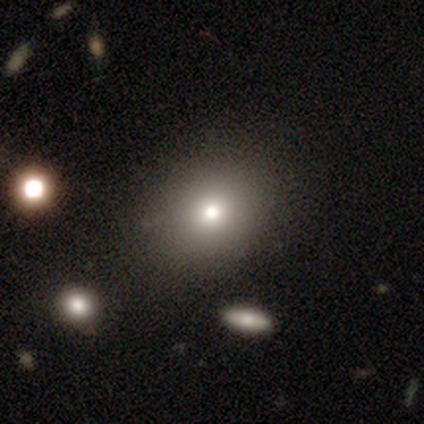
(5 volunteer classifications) This appears to be a smooth galaxy with no disk features (80%) that is round (100%). Merging: none (100%).